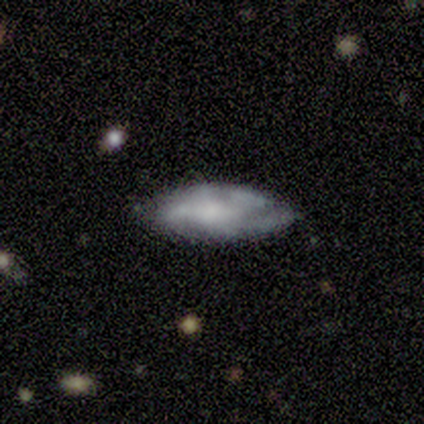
Smooth or featured?
  - featured or disk: 60% *
  - smooth: 40%
  - star or artifact: 0%
Edge-on disk?
  - no: 100% *
  - yes: 0%
Bar?
  - no: 67% *
  - weak: 33%
  - strong: 0%
Spiral arms?
  - yes: 67% *
  - no: 33%
Spiral winding?
  - tight: 50% * (tied)
  - loose: 50% * (tied)
  - medium: 0%
Spiral arm count?
  - can't tell: 100% *
  - 1: 0%
  - 2: 0%
  - 3: 0%
  - 4: 0%
  - more than 4: 0%
Bulge size?
  - large: 67% *
  - none: 33%
  - dominant: 0%
  - moderate: 0%
  - small: 0%
Merging?
  - none: 60% *
  - minor disturbance: 20%
  - major disturbance: 20%
  - merger: 0%